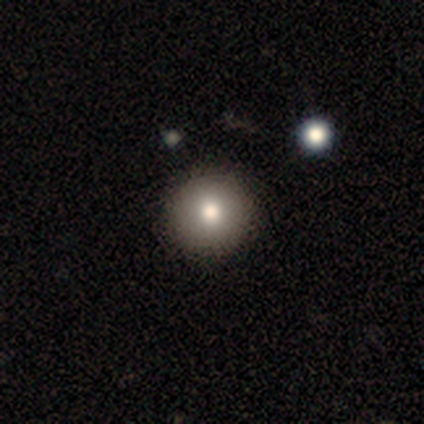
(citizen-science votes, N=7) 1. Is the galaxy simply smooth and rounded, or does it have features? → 43% smooth (tied), 43% featured or disk (tied), 14% star or artifact.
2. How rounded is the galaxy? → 100% round, 0% in between, 0% cigar-shaped.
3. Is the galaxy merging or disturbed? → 100% none, 0% minor disturbance, 0% major disturbance, 0% merger.